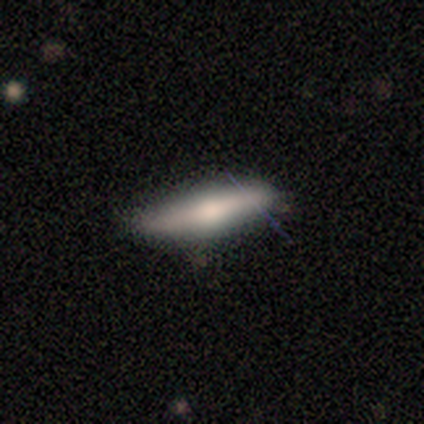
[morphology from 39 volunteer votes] Q: Smooth or featured?
A: smooth (64%); runner-up: featured or disk (33%)
Q: How rounded?
A: cigar-shaped (72%); runner-up: in between (24%)
Q: Merging?
A: none (74%); runner-up: minor disturbance (21%)